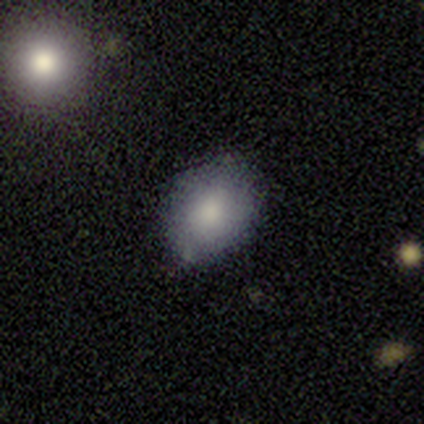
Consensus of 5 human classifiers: This is clearly a smooth galaxy (80%). How rounded: possibly round (50%, tied with in between). Merging: likely none (75%).